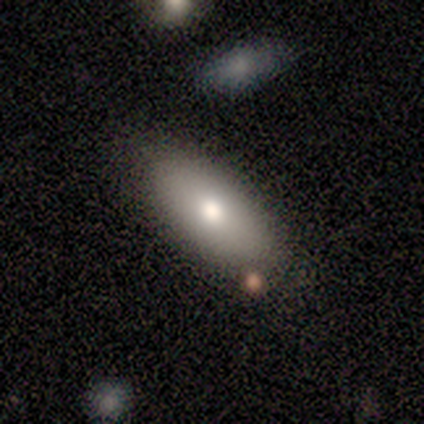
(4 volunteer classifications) Smooth or featured?
  - smooth: 75% *
  - star or artifact: 25%
  - featured or disk: 0%
How rounded?
  - in between: 100% *
  - round: 0%
  - cigar-shaped: 0%
Merging?
  - none: 100% *
  - minor disturbance: 0%
  - major disturbance: 0%
  - merger: 0%